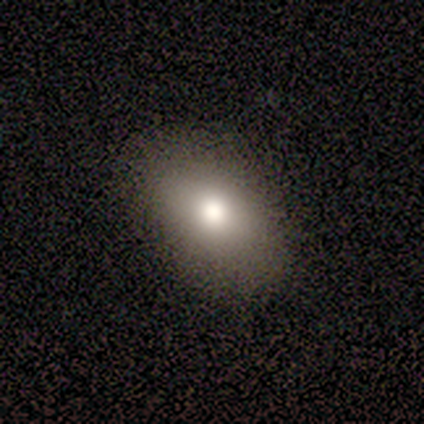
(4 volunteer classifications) This appears to be a smooth galaxy with no disk features (75%) that is in between round and cigar-shaped (100%). Merging: none (100%).